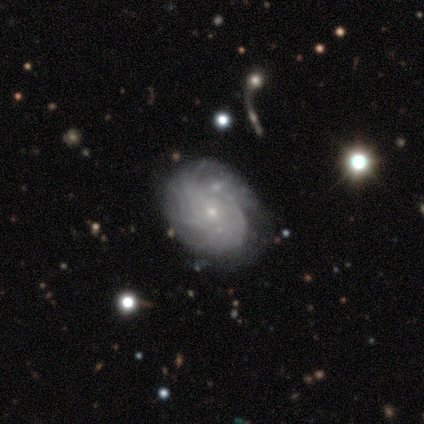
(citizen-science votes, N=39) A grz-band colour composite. It shows a featured or disk galaxy (85%) with no bar (73%), tight (67%) spiral arms (100%) and a small central bulge (79%). Merging: none (66%).